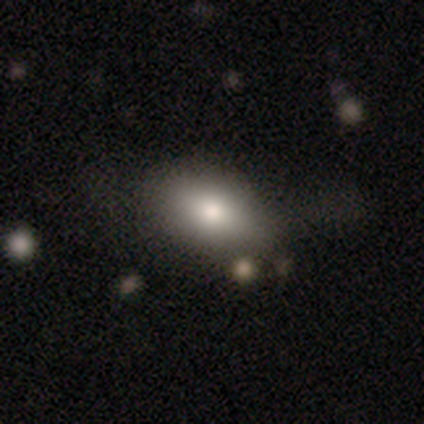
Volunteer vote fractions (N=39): Overall: smooth (79%). How rounded: in between (94%). Merging: none (38%; minor disturbance 19%).